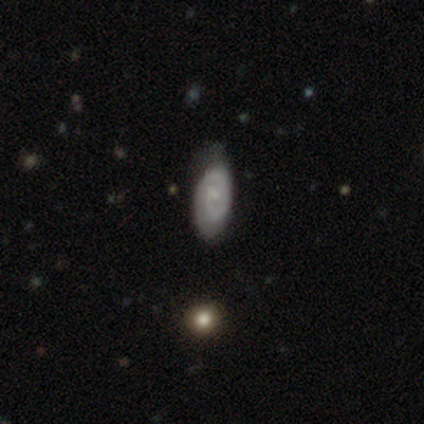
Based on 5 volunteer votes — This is clearly a featured or disk galaxy (80%). It is clearly not viewed edge-on (100%). Bar: possibly weak (50%, tied with no). Spiral arm pattern: clearly yes (100%). Spiral arm count: possibly 1 (50%, tied with 2). Spiral winding: possibly tight (50%). Central bulge: possibly small (50%, tied with none). Merging: possibly none (50%).